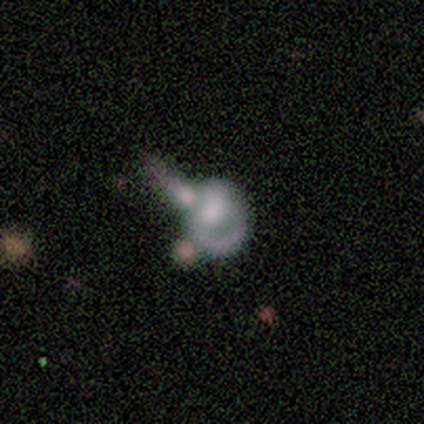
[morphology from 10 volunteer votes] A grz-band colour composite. It shows a featured or disk galaxy (70%) with no bar (57%), no spiral arms (57%) and no central bulge (43%). Merging: merger (80%).